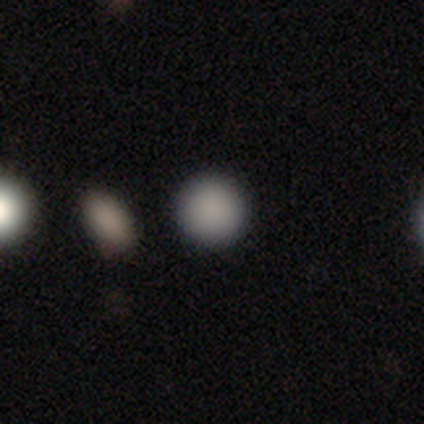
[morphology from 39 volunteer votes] Smooth or featured? smooth (87%)
How rounded? round (97%)
Merging? none (91%)